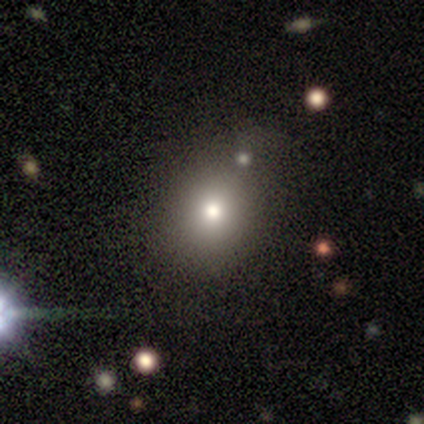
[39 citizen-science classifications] smooth_or_featured: smooth (p=0.79) [alt: star or artifact p=0.13]
how_rounded: round (p=0.81) [alt: in between p=0.19]
merging: none (p=0.65) [alt: minor disturbance p=0.21]